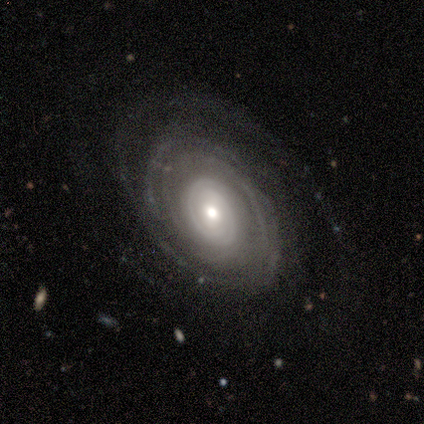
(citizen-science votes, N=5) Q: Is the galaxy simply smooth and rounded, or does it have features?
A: featured or disk — 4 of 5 (80%).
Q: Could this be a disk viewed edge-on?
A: no — 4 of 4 (100%).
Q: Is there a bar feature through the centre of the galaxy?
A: no — 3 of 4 (75%).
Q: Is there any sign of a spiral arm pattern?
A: yes — 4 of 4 (100%).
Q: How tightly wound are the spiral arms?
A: tight — 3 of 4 (75%).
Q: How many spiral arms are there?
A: can't tell — 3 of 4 (75%).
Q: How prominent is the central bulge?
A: moderate — 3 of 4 (75%).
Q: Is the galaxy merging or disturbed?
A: none — 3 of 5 (60%).